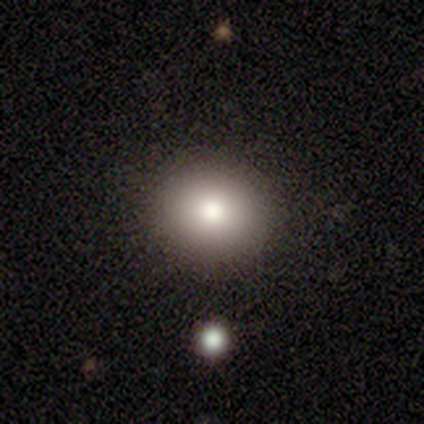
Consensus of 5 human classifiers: Smooth or featured?
  - smooth: 100% *
  - featured or disk: 0%
  - star or artifact: 0%
How rounded?
  - round: 100% *
  - in between: 0%
  - cigar-shaped: 0%
Merging?
  - none: 100% *
  - minor disturbance: 0%
  - major disturbance: 0%
  - merger: 0%